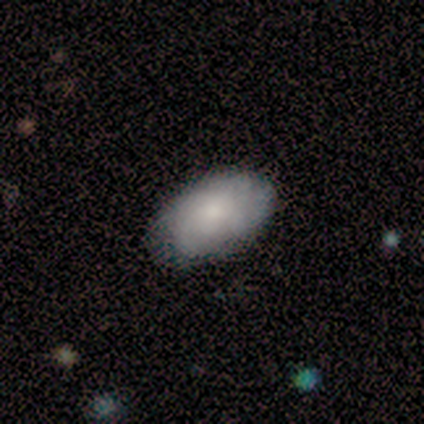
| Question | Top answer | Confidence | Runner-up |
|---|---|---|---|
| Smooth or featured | smooth | 86% | featured or disk (14%) |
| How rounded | in between | 100% | — |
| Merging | none | 71% | minor disturbance (21%) |